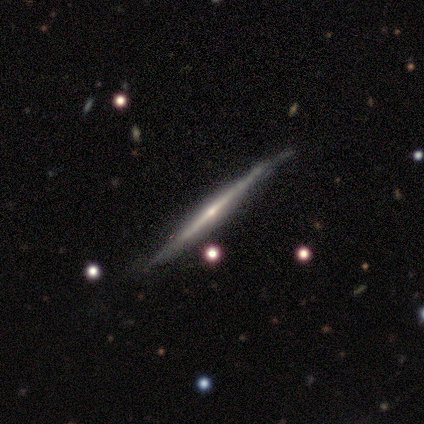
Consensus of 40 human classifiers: A featured or disk galaxy (85%) viewed edge-on (97%) with a rounded central bulge (70%).

Vote fractions:
- Smooth or featured? featured or disk: 85% / smooth: 8% / star or artifact: 8%
- Edge-on disk? yes: 97% / no: 3%
- Edge-on bulge? rounded: 70% / none: 27% / boxy: 3%
- Merging? none: 62% / minor disturbance: 32% / major disturbance: 5% / merger: 0%